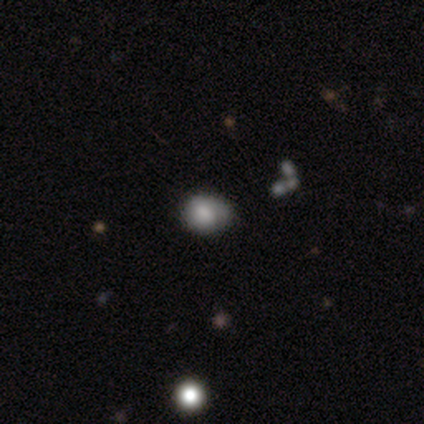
Smooth or featured? smooth (75%)
How rounded? in between (67%)
Merging? minor disturbance (67%)